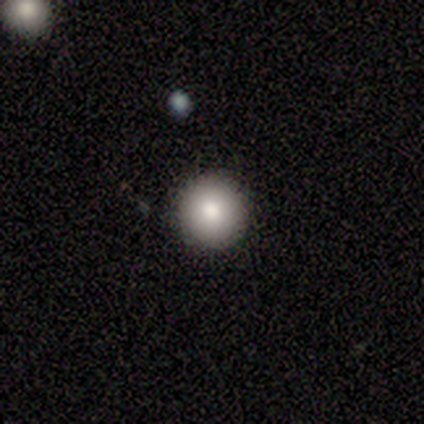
Overall: smooth (86%). How rounded: round (83%). Merging: none (71%).